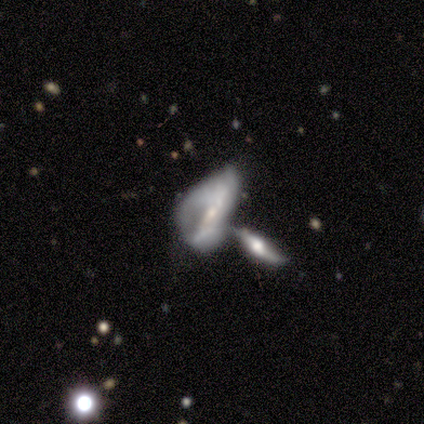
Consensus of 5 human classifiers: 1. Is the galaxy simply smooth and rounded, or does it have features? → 80% featured or disk, 20% star or artifact, 0% smooth.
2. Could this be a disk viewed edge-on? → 75% yes, 25% no.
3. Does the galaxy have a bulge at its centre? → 67% none, 33% rounded, 0% boxy.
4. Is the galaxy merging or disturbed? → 75% merger, 25% major disturbance, 0% none, 0% minor disturbance.